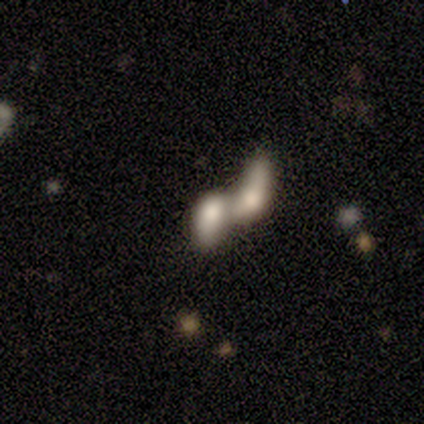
Q: Smooth or featured?
A: smooth (80%); runner-up: featured or disk (20%)
Q: How rounded?
A: cigar-shaped (50%); runner-up: round (25%)
Q: Merging?
A: merger (60%); runner-up: none (20%)